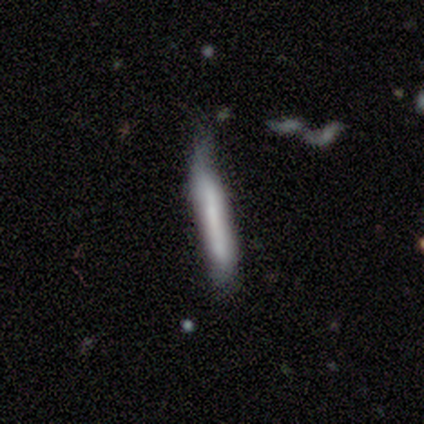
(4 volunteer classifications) A smooth galaxy with no disk features (50%, tied with featured or disk) that is cigar-shaped (100%).

Vote fractions:
- Smooth or featured? smooth: 50% (tied) / featured or disk: 50% (tied) / star or artifact: 0%
- How rounded? cigar-shaped: 100% / round: 0% / in between: 0%
- Merging? minor disturbance: 50% / none: 25% / major disturbance: 25% / merger: 0%